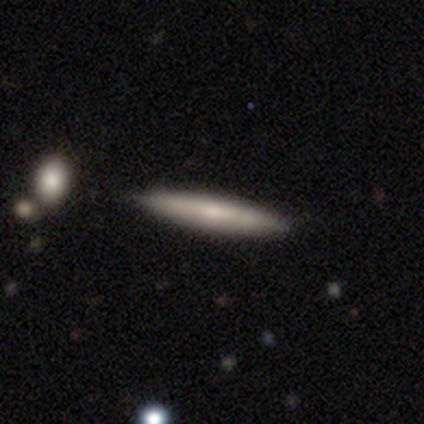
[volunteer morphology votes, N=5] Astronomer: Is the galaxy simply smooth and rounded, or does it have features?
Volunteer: smooth — 80%.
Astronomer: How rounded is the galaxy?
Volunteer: cigar-shaped — 100%.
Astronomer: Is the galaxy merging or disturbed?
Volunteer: none — 100%.